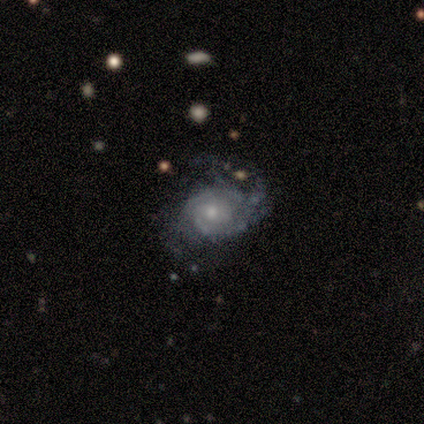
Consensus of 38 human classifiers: Q: Smooth or featured?
A: featured or disk (84%); runner-up: smooth (16%)
Q: Edge-on disk?
A: no (100%)
Q: Bar?
A: no (75%); runner-up: weak (25%)
Q: Spiral arms?
A: yes (91%); runner-up: no (9%)
Q: Spiral winding?
A: tight (55%); runner-up: loose (28%)
Q: Spiral arm count?
A: can't tell (55%); runner-up: 3 (14%)
Q: Bulge size?
A: small (69%); runner-up: moderate (31%)
Q: Merging?
A: none (50%); runner-up: major disturbance (26%)